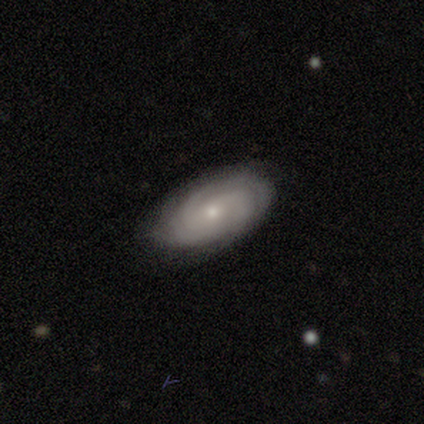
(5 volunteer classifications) This is clearly a featured or disk galaxy (80%). It is clearly not viewed edge-on (100%). Bar: possibly strong (50%, tied with no). Spiral arm pattern: clearly yes (100%). Spiral arm count: possibly 2 (50%, tied with 4). Spiral winding: clearly tight (100%). Central bulge: likely small (75%). Merging: likely none (75%).